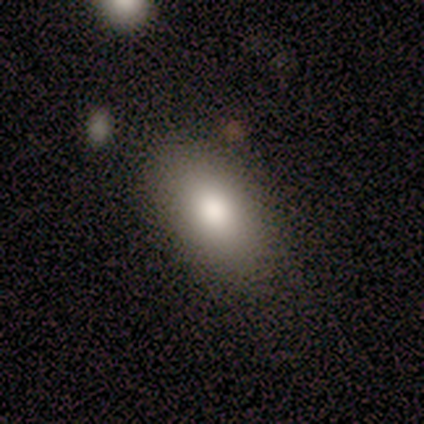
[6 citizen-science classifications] This is clearly a smooth galaxy (83%). How rounded: clearly in between (100%). Merging: clearly none (83%).